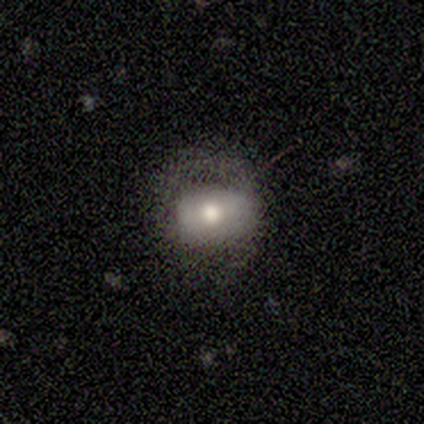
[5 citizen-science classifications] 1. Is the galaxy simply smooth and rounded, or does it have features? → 60% smooth, 20% featured or disk, 20% star or artifact.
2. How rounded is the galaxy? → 67% round, 33% in between, 0% cigar-shaped.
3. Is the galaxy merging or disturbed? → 50% none, 25% minor disturbance, 25% major disturbance, 0% merger.